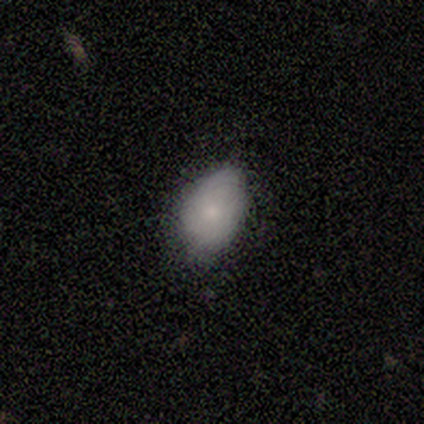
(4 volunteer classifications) Smooth or featured?
  - smooth: 100% *
  - featured or disk: 0%
  - star or artifact: 0%
How rounded?
  - in between: 100% *
  - round: 0%
  - cigar-shaped: 0%
Merging?
  - none: 100% *
  - minor disturbance: 0%
  - major disturbance: 0%
  - merger: 0%